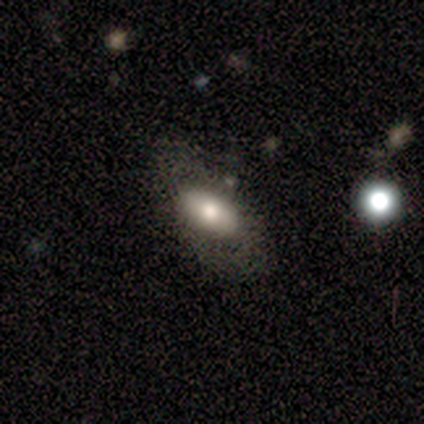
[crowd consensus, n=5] A smooth galaxy with no disk features (100%) that is in between round and cigar-shaped (100%).

Vote fractions:
- Smooth or featured? smooth: 100% / featured or disk: 0% / star or artifact: 0%
- How rounded? in between: 100% / round: 0% / cigar-shaped: 0%
- Merging? none: 60% / minor disturbance: 20% / major disturbance: 20% / merger: 0%